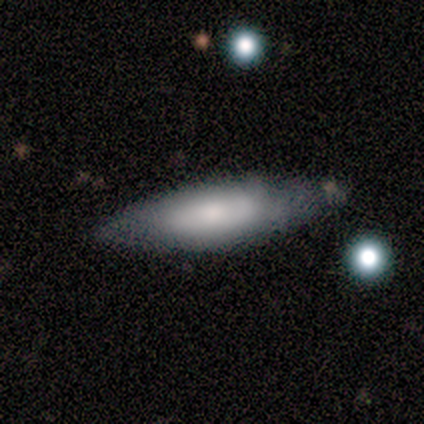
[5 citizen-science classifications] smooth 80%, featured or disk 20%, star or artifact 0%. Down the decision tree: how rounded — in between (50%, tied with cigar-shaped); merging — none (40%, tied with minor disturbance).